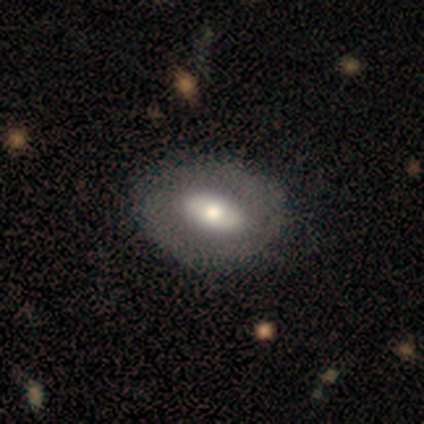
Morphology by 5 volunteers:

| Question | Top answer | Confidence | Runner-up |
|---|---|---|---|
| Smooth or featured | featured or disk | 80% | smooth (20%) |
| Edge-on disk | yes | 50% | tied: no (50%) |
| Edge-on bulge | rounded | 100% | — |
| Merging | none | 80% | major disturbance (20%) |